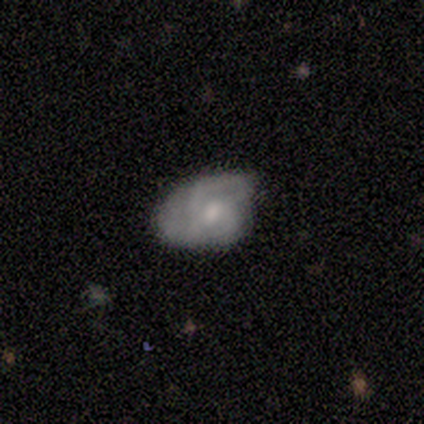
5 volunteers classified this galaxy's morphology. Q: Smooth or featured?
A: smooth (60%); runner-up: featured or disk (40%)
Q: How rounded?
A: in between (100%)
Q: Merging?
A: minor disturbance (60%); runner-up: major disturbance (40%)